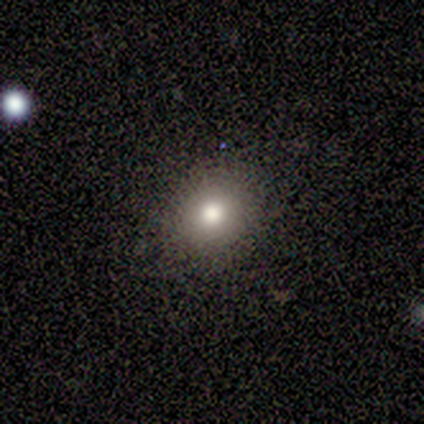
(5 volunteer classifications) smooth_or_featured: star or artifact (p=0.60) [alt: smooth p=0.40]